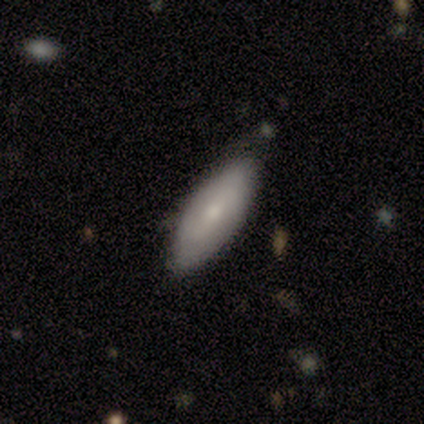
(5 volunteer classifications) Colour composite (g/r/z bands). It shows a smooth galaxy with no disk features (80%) that is in between round and cigar-shaped (100%). Merging: none (100%).